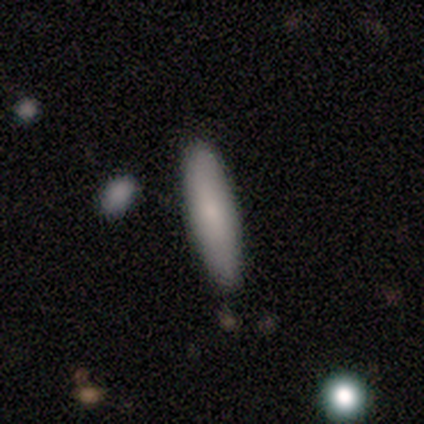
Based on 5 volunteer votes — Q: Smooth or featured?
A: smooth (80%); runner-up: star or artifact (20%)
Q: How rounded?
A: cigar-shaped (100%)
Q: Merging?
A: none (100%)